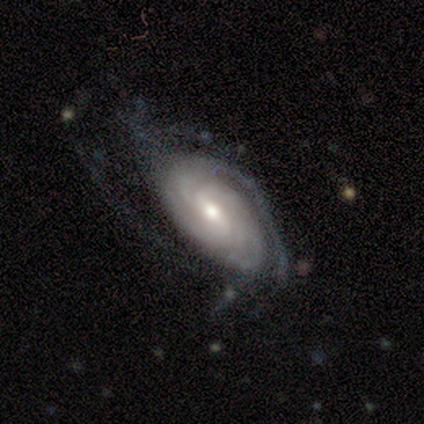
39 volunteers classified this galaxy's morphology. Smooth or featured?
  - featured or disk: 92% *
  - star or artifact: 5%
  - smooth: 3%
Edge-on disk?
  - no: 97% *
  - yes: 3%
Bar?
  - weak: 51% *
  - no: 26%
  - strong: 23%
Spiral arms?
  - yes: 97% *
  - no: 3%
Spiral winding?
  - tight: 62% *
  - medium: 26%
  - loose: 12%
Spiral arm count?
  - can't tell: 35% *
  - 3: 21%
  - 2: 15%
  - 4: 12%
  - 1: 9%
  - more than 4: 9%
Bulge size?
  - moderate: 69% *
  - small: 23%
  - dominant: 3%
  - large: 3%
  - none: 3%
Merging?
  - none: 43% *
  - minor disturbance: 32%
  - major disturbance: 22%
  - merger: 3%